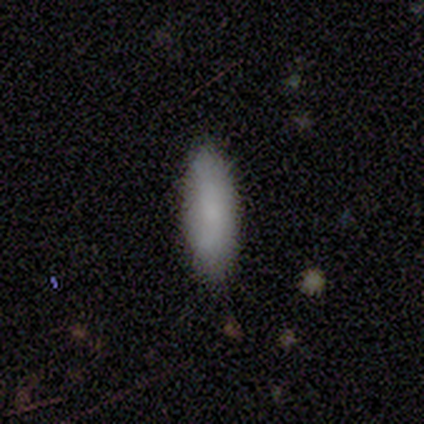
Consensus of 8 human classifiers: A smooth galaxy with no disk features (88%) that is in between round and cigar-shaped (71%).

Vote fractions:
- Smooth or featured? smooth: 88% / star or artifact: 12% / featured or disk: 0%
- How rounded? in between: 71% / cigar-shaped: 29% / round: 0%
- Merging? none: 100% / minor disturbance: 0% / major disturbance: 0% / merger: 0%